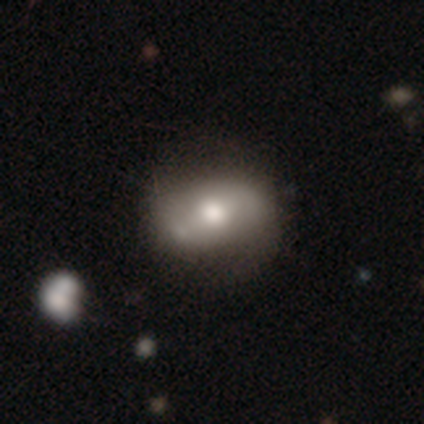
This is possibly a featured or disk galaxy (56%). It is clearly not viewed edge-on (100%). Bar: possibly weak (45%). Spiral arm pattern: possibly yes (55%). Spiral arm count: clearly 2 (100%). Spiral winding: possibly loose (50%). Central bulge: possibly moderate (59%). Merging: likely none (69%).